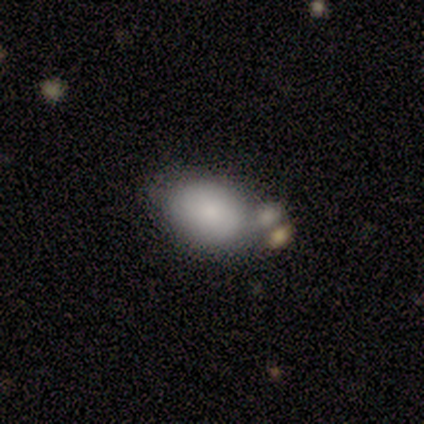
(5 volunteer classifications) This is clearly a smooth galaxy (100%). How rounded: clearly in between (100%). Merging: likely merger (60%).